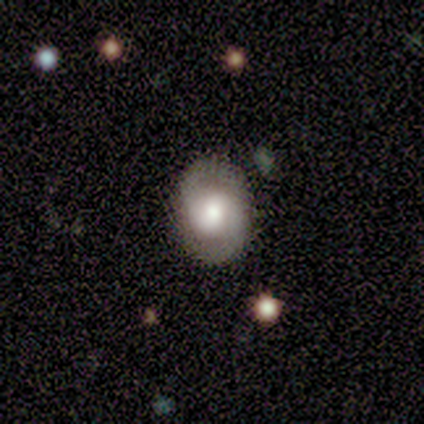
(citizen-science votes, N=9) A featured or disk galaxy (78%) with a weak bar (43%), 2 (100%) medium (71%) spiral arms (100%) and a large central bulge (43%).

Vote fractions:
- Smooth or featured? featured or disk: 78% / smooth: 22% / star or artifact: 0%
- Edge-on disk? no: 100% / yes: 0%
- Bar? weak: 43% / strong: 29% / no: 29%
- Spiral arms? yes: 100% / no: 0%
- Spiral winding? medium: 71% / tight: 14% / loose: 14%
- Spiral arm count? 2: 100% / 1: 0% / 3: 0% / 4: 0% / more than 4: 0% / can't tell: 0%
- Bulge size? large: 43% / moderate: 29% / small: 29% / dominant: 0% / none: 0%
- Merging? none: 100% / minor disturbance: 0% / major disturbance: 0% / merger: 0%